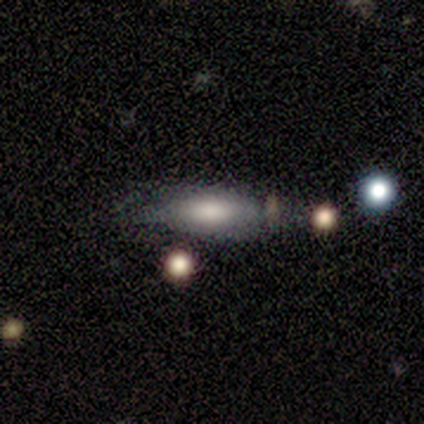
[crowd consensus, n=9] A smooth galaxy with no disk features (89%) that is in between round and cigar-shaped (75%).

Vote fractions:
- Smooth or featured? smooth: 89% / featured or disk: 11% / star or artifact: 0%
- How rounded? in between: 75% / cigar-shaped: 25% / round: 0%
- Merging? none: 56% / minor disturbance: 22% / merger: 22% / major disturbance: 0%